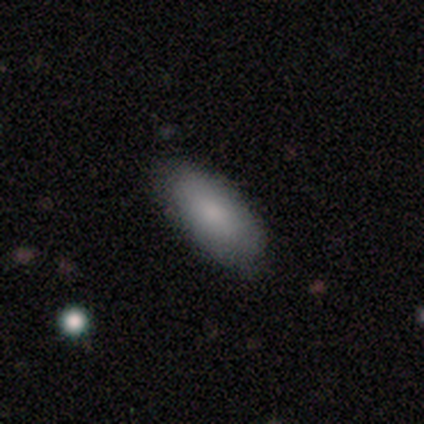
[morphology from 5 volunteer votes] Volunteers were most divided on "smooth or featured": smooth: 60%, featured or disk: 20%, star or artifact: 20%. More confident: how rounded — in between (100%); merging — none (100%).